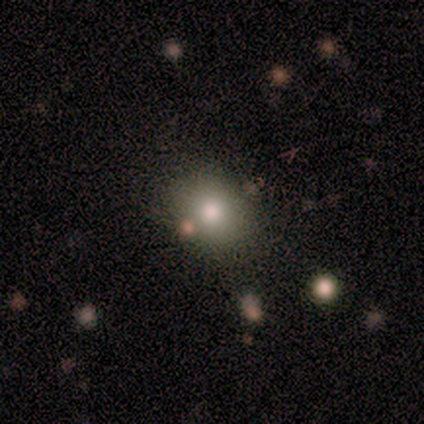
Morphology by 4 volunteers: Smooth or featured? 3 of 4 (75%) said smooth. How rounded? 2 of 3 (67%) said round. Merging? 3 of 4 (75%) said none.